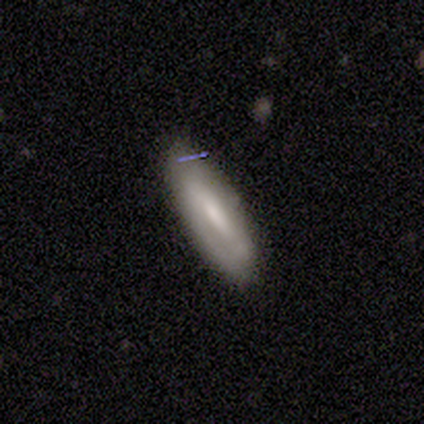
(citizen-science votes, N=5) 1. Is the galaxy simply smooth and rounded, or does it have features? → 60% featured or disk, 40% smooth, 0% star or artifact.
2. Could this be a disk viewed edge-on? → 67% no, 33% yes.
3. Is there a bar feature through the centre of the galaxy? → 100% strong, 0% weak, 0% no.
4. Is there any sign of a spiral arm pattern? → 100% no, 0% yes.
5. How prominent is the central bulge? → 100% moderate, 0% dominant, 0% large, 0% small, 0% none.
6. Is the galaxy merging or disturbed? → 40% none, 20% minor disturbance, 20% major disturbance, 20% merger.